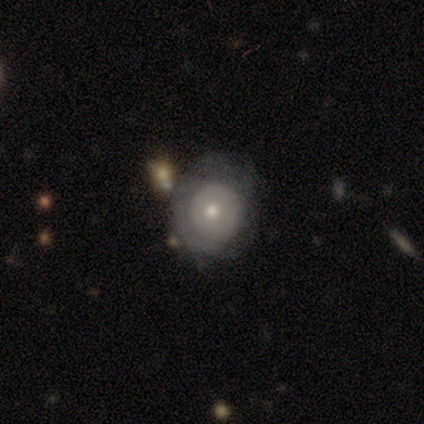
Volunteers were most divided on "smooth or featured": featured or disk: 50%, smooth: 45%, star or artifact: 5%. More confident: edge-on disk — no (100%); bar — no (100%); bulge size — moderate (70%); spiral arms — no (65%); merging — none (63%).